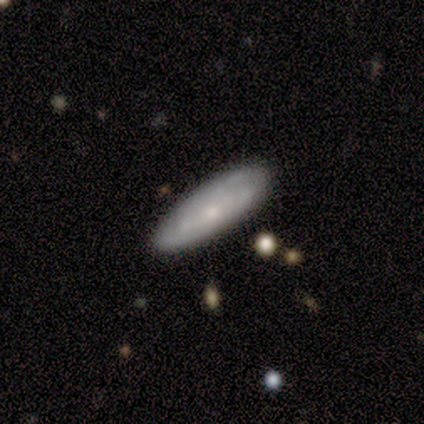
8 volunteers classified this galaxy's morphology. This is possibly a smooth galaxy (50%). How rounded: likely in between (75%). Merging: clearly none (100%).